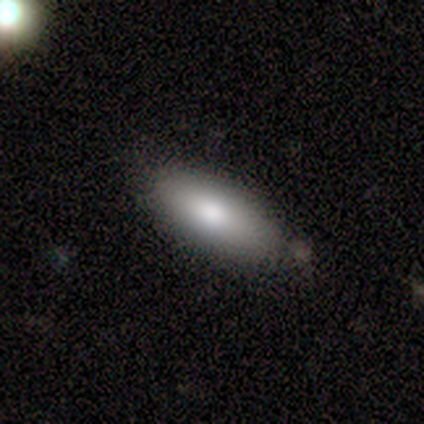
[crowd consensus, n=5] Smooth or featured?
  - smooth: 60% *
  - featured or disk: 40%
  - star or artifact: 0%
How rounded?
  - in between: 100% *
  - round: 0%
  - cigar-shaped: 0%
Merging?
  - none: 60% *
  - minor disturbance: 20%
  - merger: 20%
  - major disturbance: 0%